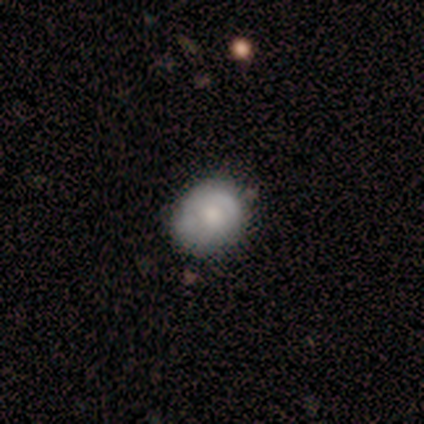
smooth_or_featured: smooth (p=0.40) [tied with: featured or disk p=0.40]
how_rounded: round (p=1.00)
merging: none (p=0.75) [alt: minor disturbance p=0.25]